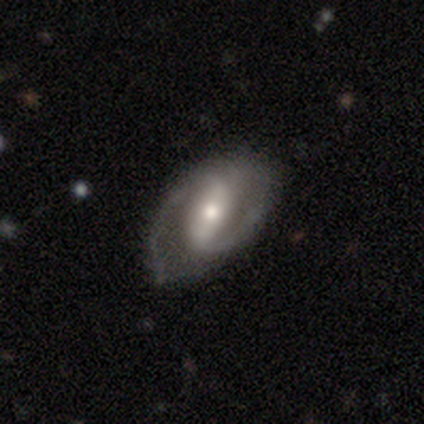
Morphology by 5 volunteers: Q: Smooth or featured?
A: featured or disk (100%)
Q: Edge-on disk?
A: no (100%)
Q: Bar?
A: weak (80%); runner-up: strong (20%)
Q: Spiral arms?
A: yes (100%)
Q: Spiral winding?
A: medium (60%); runner-up: loose (40%)
Q: Spiral arm count?
A: 2 (80%); runner-up: can't tell (20%)
Q: Bulge size?
A: moderate (40%); tied with: small (40%)
Q: Merging?
A: none (60%); runner-up: minor disturbance (40%)